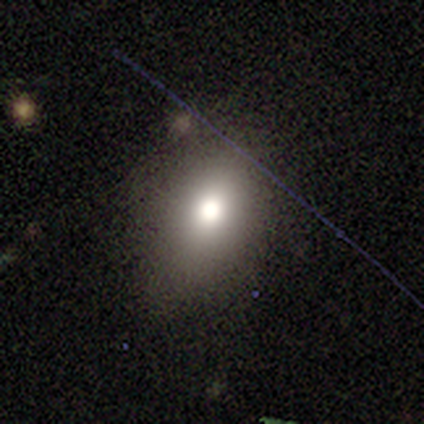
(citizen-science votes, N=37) This is likely a smooth galaxy (70%). How rounded: likely in between (62%). Merging: likely none (74%).